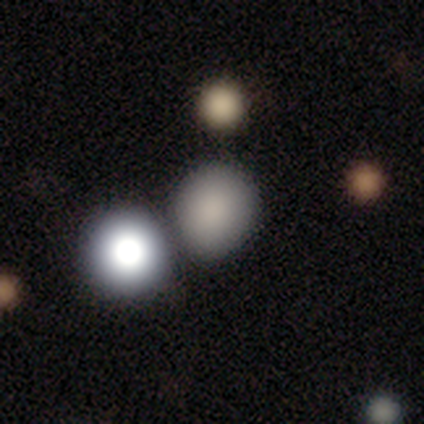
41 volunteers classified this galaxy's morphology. This is clearly a smooth galaxy (85%). How rounded: likely round (77%). Merging: possibly none (46%).